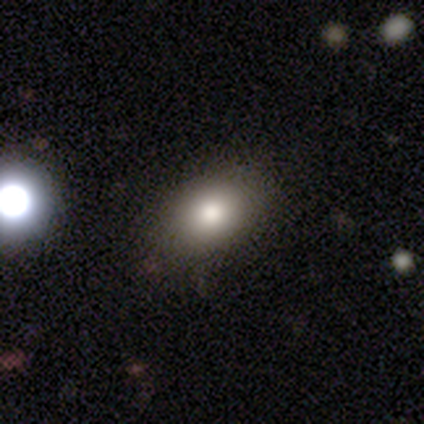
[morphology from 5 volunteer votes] This appears to be a smooth galaxy with no disk features (100%) that is in between round and cigar-shaped (100%). Merging: none (80%).